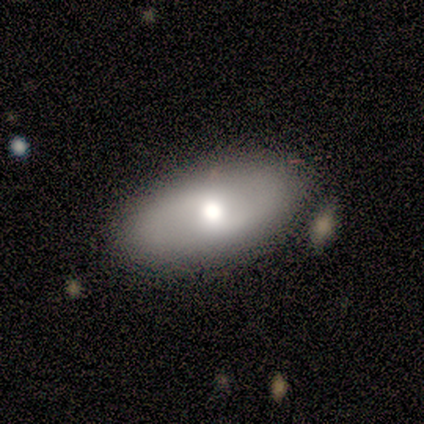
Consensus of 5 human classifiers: This is clearly a featured or disk galaxy (100%). It is clearly not viewed edge-on (80%). Bar: likely weak (75%). Spiral arm pattern: possibly yes (50%, tied with no). Spiral arm count: clearly 2 (100%). Spiral winding: possibly medium (50%, tied with loose). Central bulge: likely moderate (75%). Merging: clearly none (100%).